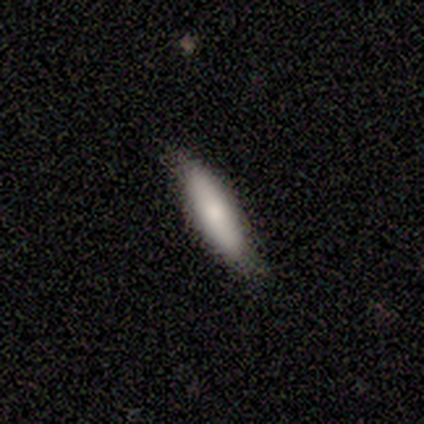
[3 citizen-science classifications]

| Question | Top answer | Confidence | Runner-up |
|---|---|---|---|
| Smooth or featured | smooth | 100% | — |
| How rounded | in between | 67% | cigar-shaped (33%) |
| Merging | none | 67% | minor disturbance (33%) |